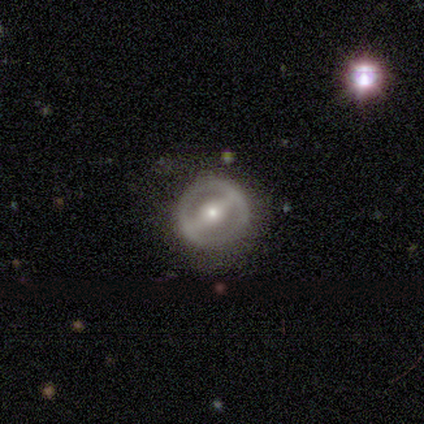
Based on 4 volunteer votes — Morphology: type=featured or disk (100%); edge-on=no (100%); bar=strong (100%); spiral arms=yes (50%, tied with no); winding=tight (100%); arm count=2 (100%); bulge=moderate (75%); merging=none (75%).